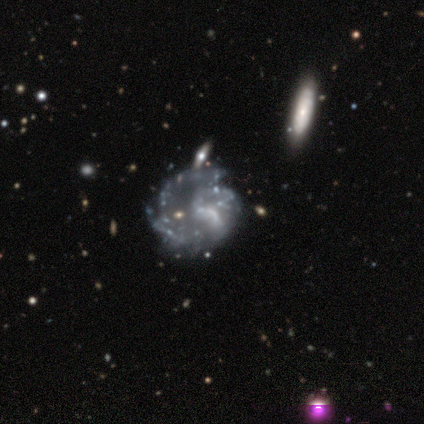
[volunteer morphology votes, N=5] smooth_or_featured: featured or disk (p=1.00)
disk_edge_on: no (p=1.00)
bar: no (p=1.00)
has_spiral_arms: yes (p=0.60) [alt: no p=0.40]
spiral_winding: medium (p=1.00)
spiral_arm_count: can't tell (p=0.67) [alt: 2 p=0.33]
bulge_size: none (p=0.80) [alt: small p=0.20]
merging: none (p=0.40) [tied with: minor disturbance p=0.40]